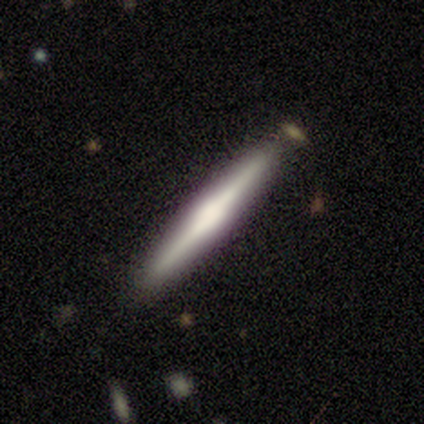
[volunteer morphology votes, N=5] Smooth or featured?
  - featured or disk: 60% *
  - smooth: 40%
  - star or artifact: 0%
Edge-on disk?
  - yes: 100% *
  - no: 0%
Edge-on bulge?
  - boxy: 67% *
  - rounded: 33%
  - none: 0%
Merging?
  - none: 100% *
  - minor disturbance: 0%
  - major disturbance: 0%
  - merger: 0%